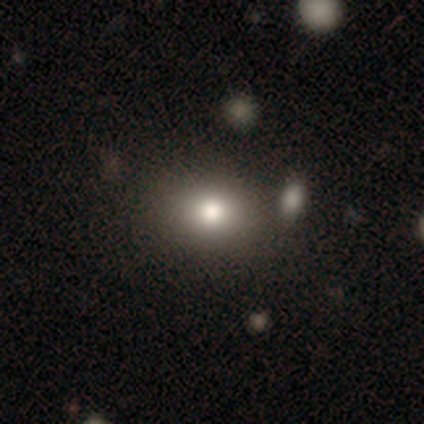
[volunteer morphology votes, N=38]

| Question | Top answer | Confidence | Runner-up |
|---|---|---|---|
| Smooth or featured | smooth | 66% | star or artifact (18%) |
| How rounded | round | 60% | in between (40%) |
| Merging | none | 55% | minor disturbance (6%) |